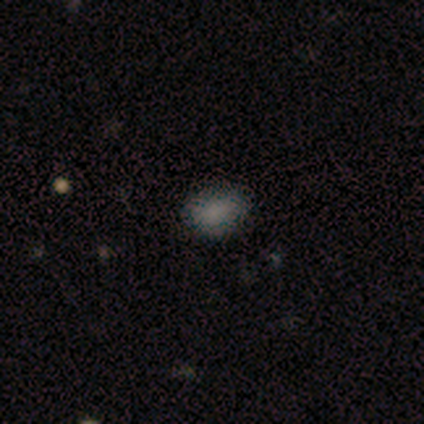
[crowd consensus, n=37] Smooth or featured?
  - smooth: 89% *
  - star or artifact: 11%
  - featured or disk: 0%
How rounded?
  - in between: 79% *
  - round: 18%
  - cigar-shaped: 3%
Merging?
  - none: 48% *
  - minor disturbance: 9%
  - merger: 3%
  - major disturbance: 0%